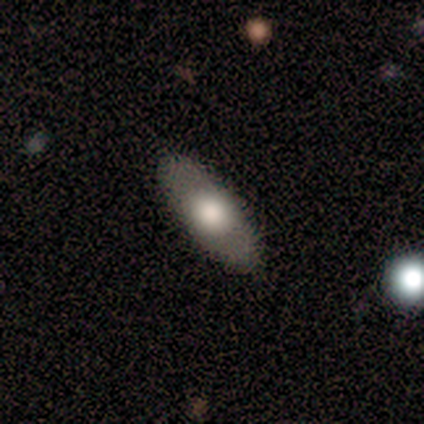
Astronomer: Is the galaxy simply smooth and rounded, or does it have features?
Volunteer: smooth — 80%.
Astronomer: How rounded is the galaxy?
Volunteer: in between — 100%.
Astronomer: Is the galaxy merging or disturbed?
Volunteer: none — 100%.